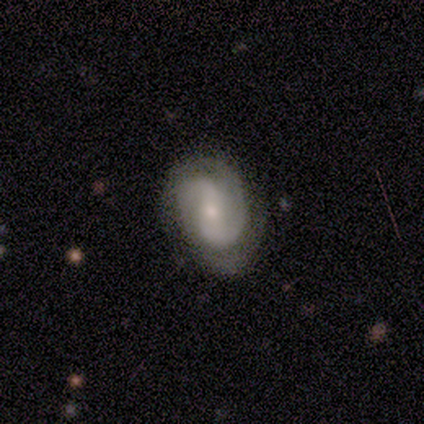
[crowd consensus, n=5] A featured or disk galaxy (80%) with a weak bar (50%), 2 (100%) tight (50%, tied with medium) spiral arms (100%) and a small central bulge (100%).

Vote fractions:
- Smooth or featured? featured or disk: 80% / smooth: 20% / star or artifact: 0%
- Edge-on disk? no: 100% / yes: 0%
- Bar? weak: 50% / strong: 25% / no: 25%
- Spiral arms? yes: 100% / no: 0%
- Spiral winding? tight: 50% (tied) / medium: 50% (tied) / loose: 0%
- Spiral arm count? 2: 100% / 1: 0% / 3: 0% / 4: 0% / more than 4: 0% / can't tell: 0%
- Bulge size? small: 100% / dominant: 0% / large: 0% / moderate: 0% / none: 0%
- Merging? none: 60% / minor disturbance: 20% / major disturbance: 20% / merger: 0%